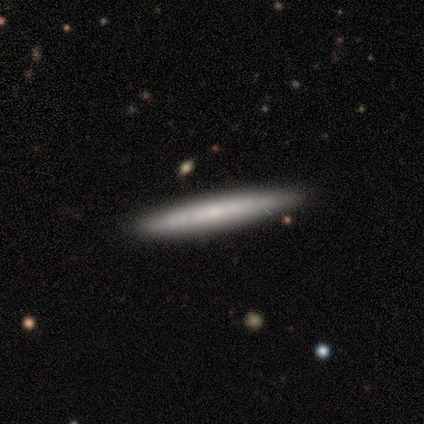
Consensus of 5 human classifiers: smooth_or_featured: smooth (p=0.80) [alt: featured or disk p=0.20]
how_rounded: cigar-shaped (p=1.00)
merging: none (p=0.80) [alt: minor disturbance p=0.20]